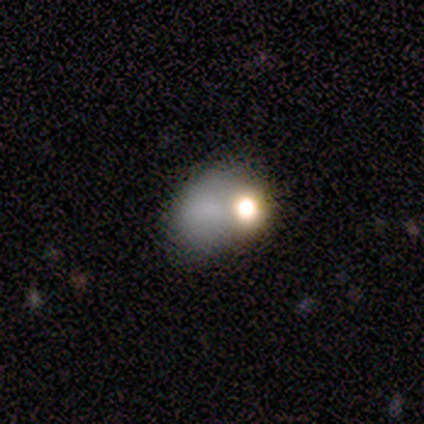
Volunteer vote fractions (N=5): This is marginally a smooth galaxy (40%, tied with star or artifact). How rounded: possibly round (50%, tied with in between). Merging: marginally none (33%, tied with minor disturbance and major disturbance).